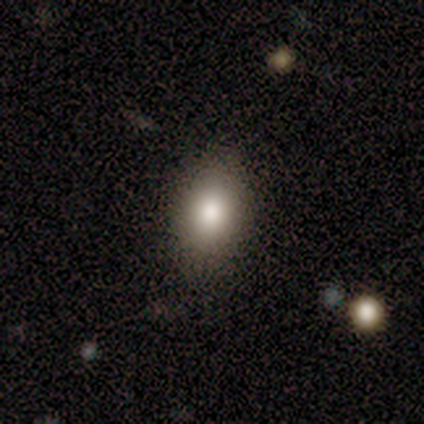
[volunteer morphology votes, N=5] smooth_or_featured: smooth (p=0.80) [alt: featured or disk p=0.20]
how_rounded: in between (p=1.00)
merging: none (p=1.00)